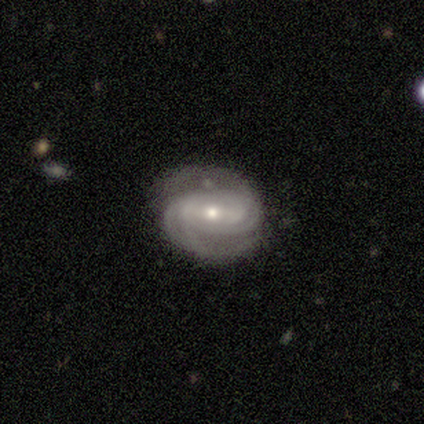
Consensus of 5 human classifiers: This is clearly a featured or disk galaxy (80%). It is clearly not viewed edge-on (100%). Bar: possibly no (50%). Spiral arm pattern: clearly yes (100%). Spiral arm count: possibly 2 (50%). Spiral winding: clearly medium (100%). Central bulge: likely small (75%). Merging: clearly none (100%).